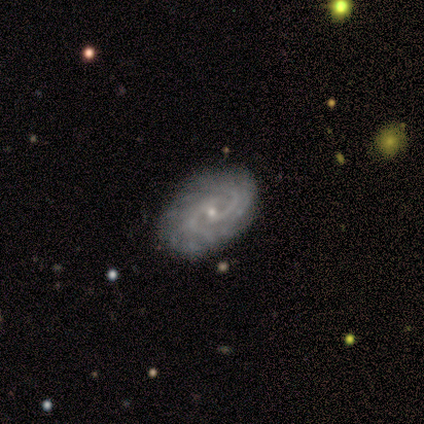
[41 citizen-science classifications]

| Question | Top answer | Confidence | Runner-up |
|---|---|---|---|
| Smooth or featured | featured or disk | 90% | smooth (10%) |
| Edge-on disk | no | 97% | yes (3%) |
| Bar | no | 72% | weak (25%) |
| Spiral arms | yes | 100% | — |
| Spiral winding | tight | 69% | medium (31%) |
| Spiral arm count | can't tell | 44% | 2 (42%) |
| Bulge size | small | 75% | moderate (22%) |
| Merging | none | 85% | minor disturbance (10%) |